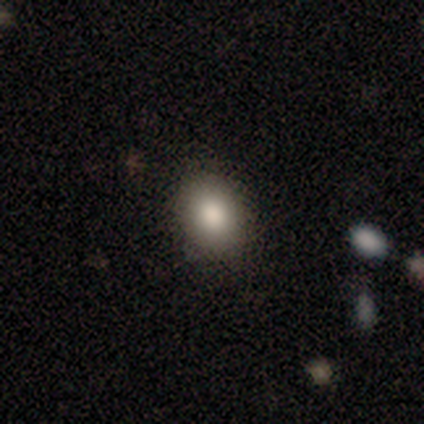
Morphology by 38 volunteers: smooth-or-featured: smooth: 74% | featured or disk: 16% | star or artifact: 11%
  how-rounded: in between: 61% | round: 39% | cigar-shaped: 0%
  merging: none: 79% | minor disturbance: 21% | major disturbance: 0% | merger: 0%